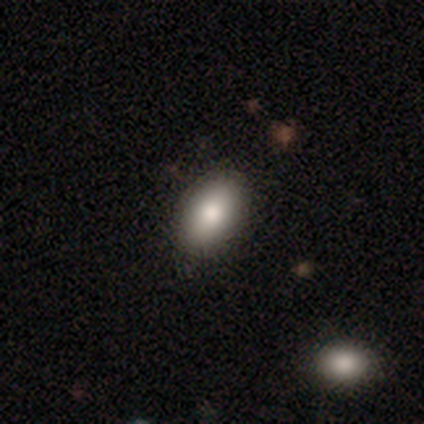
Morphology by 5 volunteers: type=smooth (80%); roundness=in between (100%); merging=none (100%).